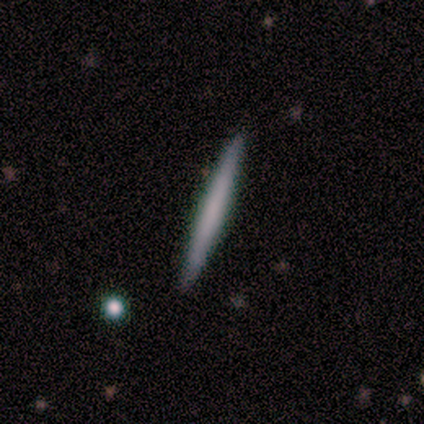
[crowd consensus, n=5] Smooth or featured? 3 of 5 (60%) said smooth. How rounded? 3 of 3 (100%) said cigar-shaped. Merging? 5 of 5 (100%) said none.